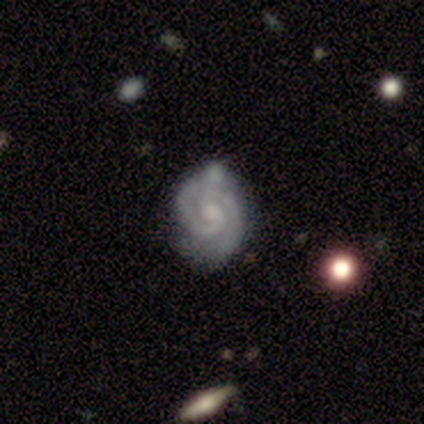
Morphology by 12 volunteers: Smooth or featured? 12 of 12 (100%) said featured or disk. Edge-on disk? 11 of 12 (92%) said no. Bar? 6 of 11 (55%) said no. Spiral arms? 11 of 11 (100%) said yes. Spiral winding? 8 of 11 (73%) said tight. Spiral arm count? 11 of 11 (100%) said 2. Bulge size? 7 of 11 (64%) said moderate. Merging? 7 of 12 (58%) said none.